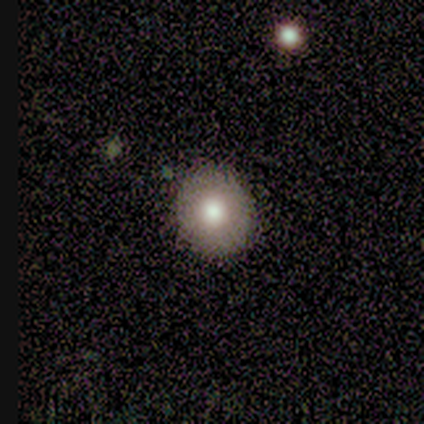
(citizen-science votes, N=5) Smooth or featured? smooth (100%)
How rounded? round (60%)
Merging? none (100%)